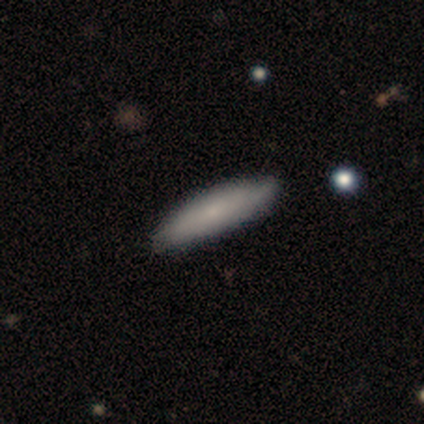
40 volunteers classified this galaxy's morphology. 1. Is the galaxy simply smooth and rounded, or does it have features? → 75% smooth, 22% featured or disk, 2% star or artifact.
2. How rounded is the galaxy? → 67% cigar-shaped, 33% in between, 0% round.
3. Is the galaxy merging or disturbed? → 67% none, 15% minor disturbance, 3% major disturbance, 0% merger.